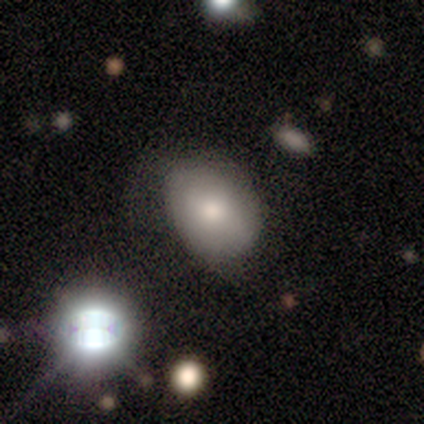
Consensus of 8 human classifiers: Overall: smooth (62%; star or artifact 38%). How rounded: in between (100%). Merging: minor disturbance (60%; none 40%).